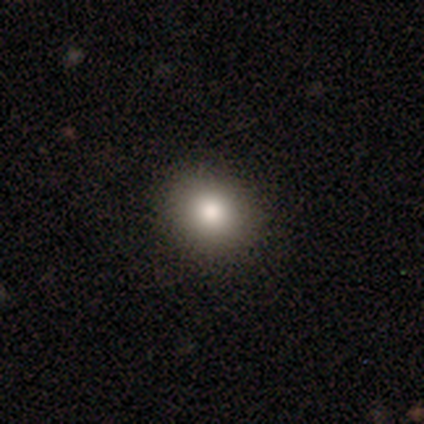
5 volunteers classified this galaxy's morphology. Smooth or featured: smooth — 40% (tied with featured or disk — 40%)
How rounded: round — 50% (tied with in between — 50%)
Merging: none — 100%